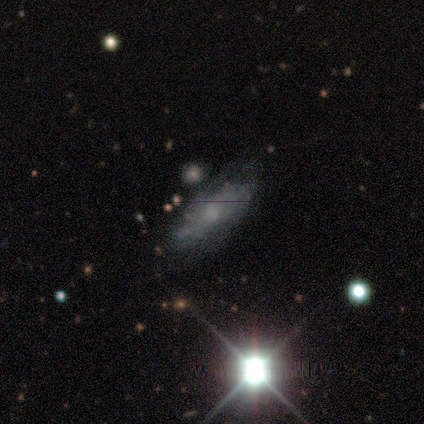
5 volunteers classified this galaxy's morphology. This is marginally a featured or disk galaxy (40%, tied with star or artifact). It is clearly not viewed edge-on (100%). Bar: clearly no (100%). Spiral arm pattern: clearly yes (100%). Spiral arm count: possibly 2 (50%, tied with can't tell). Spiral winding: possibly tight (50%, tied with loose). Central bulge: possibly moderate (50%, tied with small). Merging: likely none (67%).